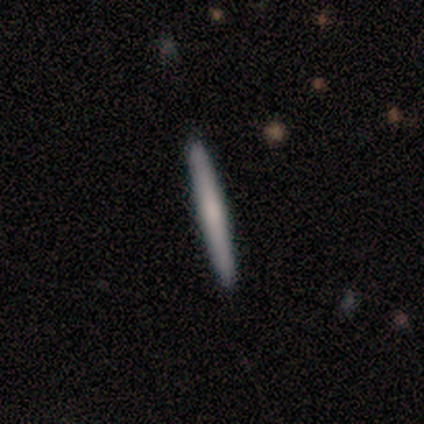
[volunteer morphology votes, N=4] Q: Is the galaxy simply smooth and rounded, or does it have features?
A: smooth — 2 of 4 (50%, tied with featured or disk).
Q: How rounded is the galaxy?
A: cigar-shaped — 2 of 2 (100%).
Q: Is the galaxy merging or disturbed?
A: none — 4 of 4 (100%).